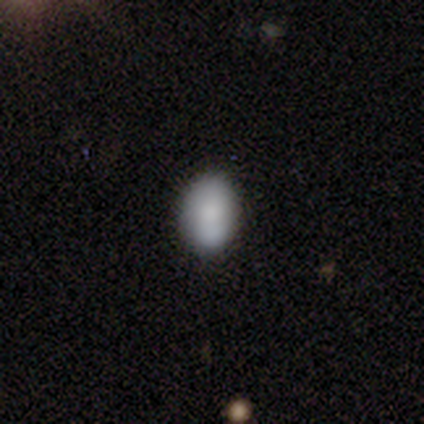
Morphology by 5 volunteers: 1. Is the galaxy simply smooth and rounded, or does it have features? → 100% smooth, 0% featured or disk, 0% star or artifact.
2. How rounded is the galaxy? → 80% in between, 20% round, 0% cigar-shaped.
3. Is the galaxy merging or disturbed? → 100% none, 0% minor disturbance, 0% major disturbance, 0% merger.